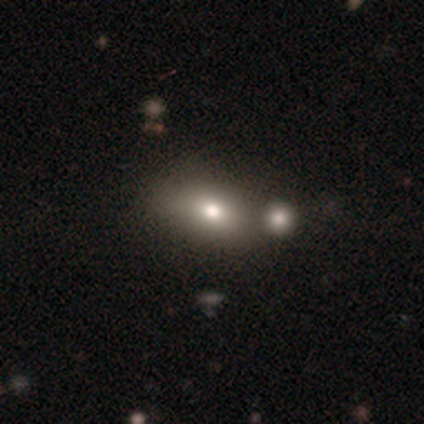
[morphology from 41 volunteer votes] type=smooth (83%); roundness=in between (79%); merging=none (46%).